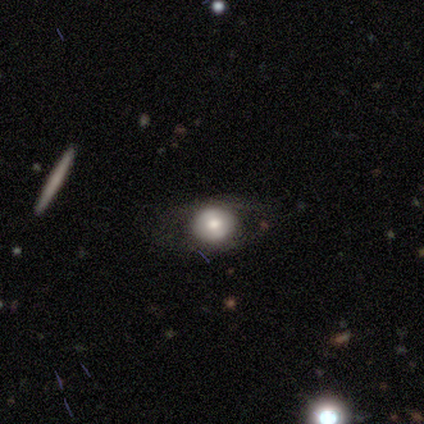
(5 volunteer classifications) This appears to be a smooth galaxy with no disk features (40%, tied with featured or disk) that is round (50%, tied with in between). Merging: none (50%, tied with minor disturbance).